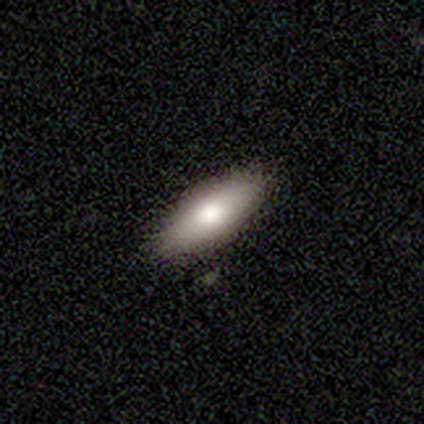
smooth-or-featured: smooth: 67% | featured or disk: 33% | star or artifact: 0%
  how-rounded: in between: 100% | round: 0% | cigar-shaped: 0%
  merging: none: 67% | minor disturbance: 33% | major disturbance: 0% | merger: 0%